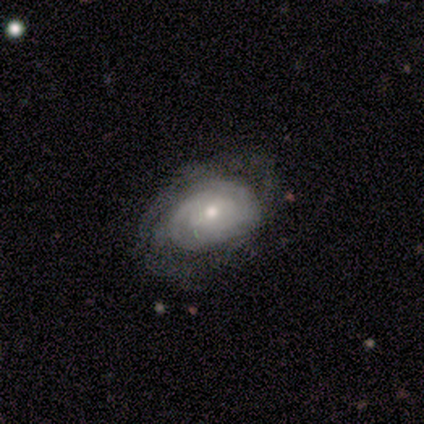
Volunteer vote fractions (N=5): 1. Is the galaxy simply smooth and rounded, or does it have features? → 60% smooth, 40% featured or disk, 0% star or artifact.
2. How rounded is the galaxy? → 67% in between, 33% round, 0% cigar-shaped.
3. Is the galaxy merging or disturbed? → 80% none, 20% minor disturbance, 0% major disturbance, 0% merger.